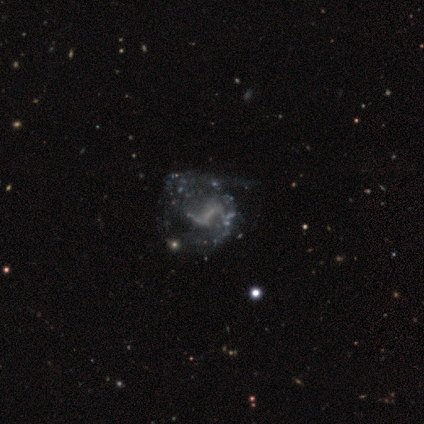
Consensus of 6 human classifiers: This is clearly a featured or disk galaxy (83%). It is clearly not viewed edge-on (100%). Bar: clearly no (80%). Spiral arm pattern: likely no (60%). Central bulge: clearly none (80%). Merging: possibly none (50%, tied with major disturbance).